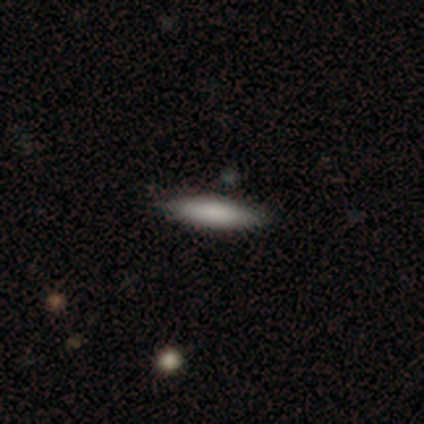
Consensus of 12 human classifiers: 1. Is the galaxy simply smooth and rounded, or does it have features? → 92% smooth, 8% star or artifact, 0% featured or disk.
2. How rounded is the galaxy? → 82% cigar-shaped, 18% in between, 0% round.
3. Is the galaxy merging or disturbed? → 73% none, 27% minor disturbance, 0% major disturbance, 0% merger.